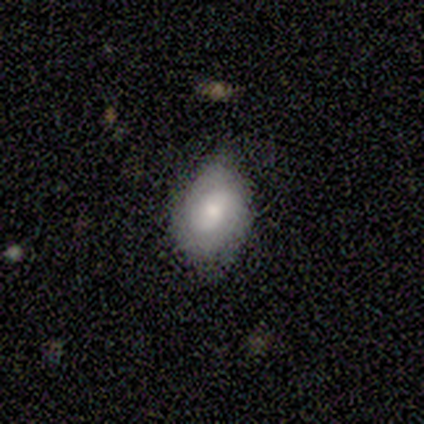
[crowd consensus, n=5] This is likely a featured or disk galaxy (60%). It is clearly not viewed edge-on (100%). Bar: likely no (67%). Spiral arm pattern: clearly no (100%). Central bulge: likely small (67%). Merging: likely minor disturbance (67%).